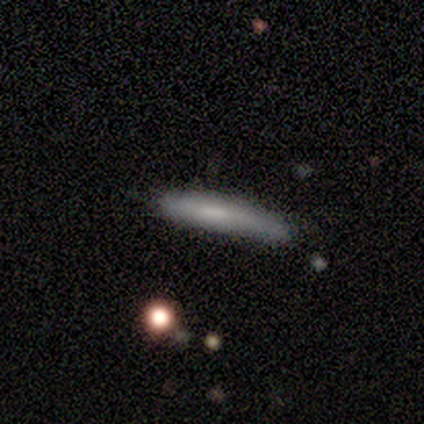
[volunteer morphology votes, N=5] smooth 60%, featured or disk 40%, star or artifact 0%. Down the decision tree: how rounded — cigar-shaped (67%); merging — none (80%).